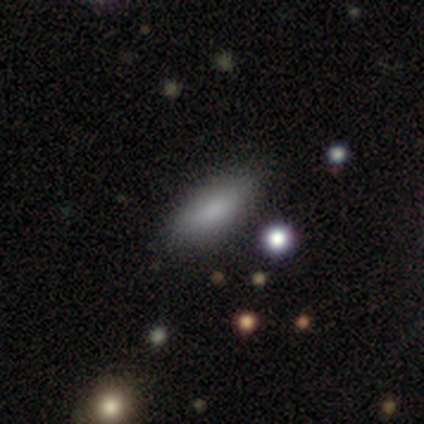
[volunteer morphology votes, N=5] This appears to be a smooth galaxy with no disk features (100%) that is cigar-shaped (60%). Merging: none (100%).